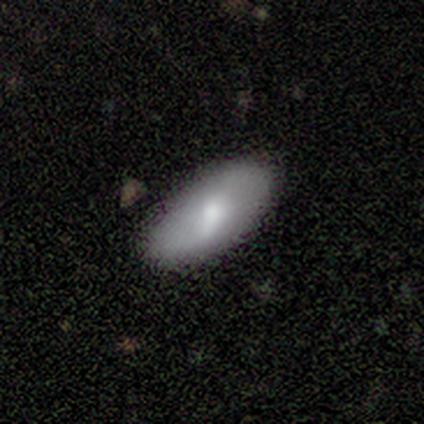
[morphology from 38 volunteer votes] Volunteers were most divided on "spiral arms" (2-way tie): yes: 50%, no: 50%; "spiral arm count" (2-way tie): 1: 43%, 2: 43%, can't tell: 14%, 3: 0%, 4: 0%, more than 4: 0%. Remaining: spiral winding — loose (100%); merging — none (89%); edge-on disk — no (78%); bar — weak (57%); smooth or featured — featured or disk (47%); bulge size — moderate (43%).